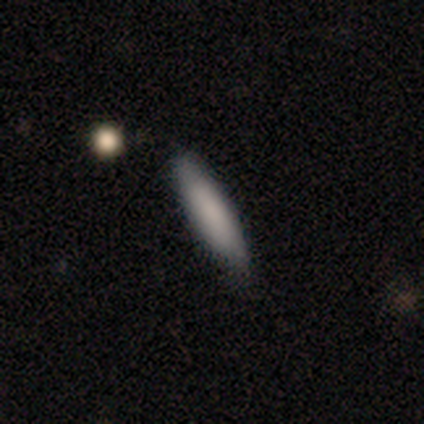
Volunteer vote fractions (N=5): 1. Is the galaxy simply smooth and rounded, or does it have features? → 100% smooth, 0% featured or disk, 0% star or artifact.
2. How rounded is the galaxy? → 60% cigar-shaped, 40% in between, 0% round.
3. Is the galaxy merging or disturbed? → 100% none, 0% minor disturbance, 0% major disturbance, 0% merger.